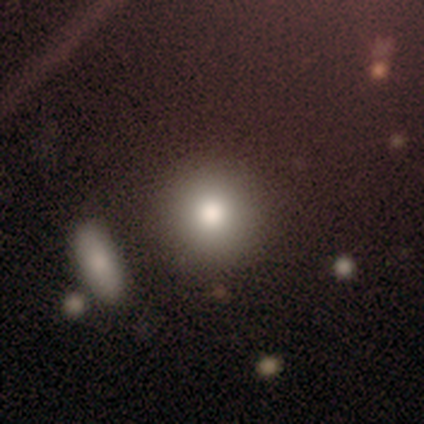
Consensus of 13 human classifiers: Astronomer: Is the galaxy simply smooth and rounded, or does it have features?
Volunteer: smooth — 85%.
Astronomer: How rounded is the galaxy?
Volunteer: round — 100%.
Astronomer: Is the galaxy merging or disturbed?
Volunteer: none — 83%.